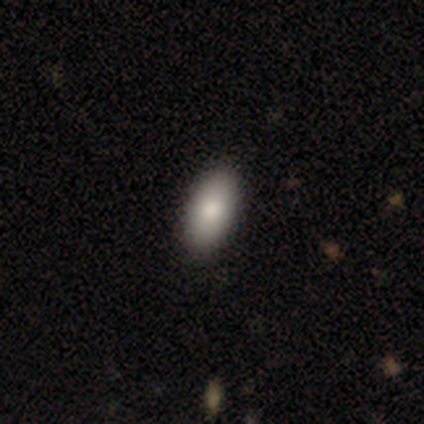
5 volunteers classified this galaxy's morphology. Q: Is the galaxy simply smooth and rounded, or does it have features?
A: smooth — 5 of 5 (100%).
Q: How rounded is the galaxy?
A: in between — 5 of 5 (100%).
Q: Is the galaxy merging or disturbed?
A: none — 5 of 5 (100%).